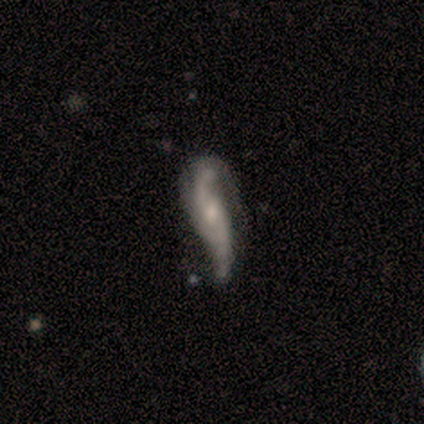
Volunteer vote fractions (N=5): Overall: featured or disk (60%; smooth 40%). Edge-on disk: no (100%). Bar: weak (67%; no 33%). Spiral arms: yes (67%; no 33%). Spiral arm count: 2 (50%, tied with 3). Spiral winding: loose (100%). Bulge size: moderate (67%; small 33%). Merging: none (80%).